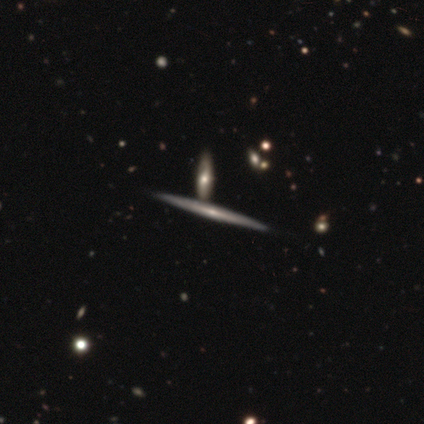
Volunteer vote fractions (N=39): featured or disk 74%, smooth 23%, star or artifact 3%. Down the decision tree: edge-on disk — yes (93%); edge-on bulge — rounded (59%); merging — none (47%).